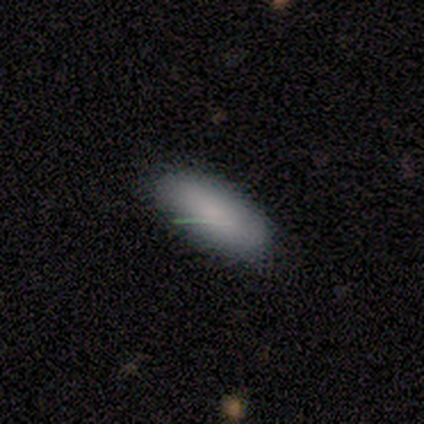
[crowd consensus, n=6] This appears to be a smooth galaxy with no disk features (100%) that is in between round and cigar-shaped (100%). Merging: none (83%).